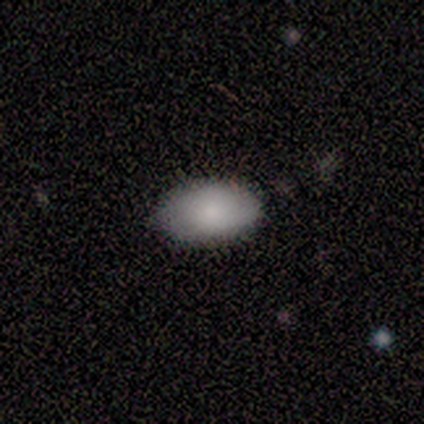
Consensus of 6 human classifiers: smooth_or_featured: smooth (p=0.67) [alt: featured or disk p=0.33]
how_rounded: in between (p=1.00)
merging: none (p=0.67) [alt: minor disturbance p=0.33]